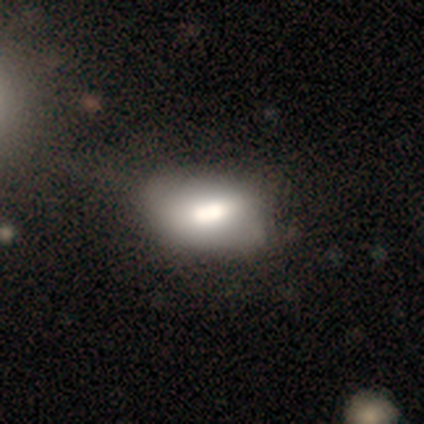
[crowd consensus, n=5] Smooth or featured?
  - smooth: 80% *
  - star or artifact: 20%
  - featured or disk: 0%
How rounded?
  - in between: 100% *
  - round: 0%
  - cigar-shaped: 0%
Merging?
  - none: 50% *
  - minor disturbance: 25%
  - merger: 25%
  - major disturbance: 0%